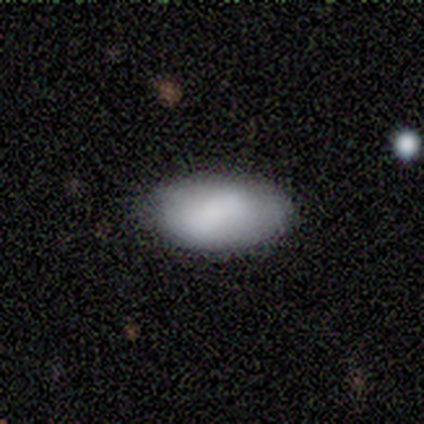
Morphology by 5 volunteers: A smooth galaxy with no disk features (60%) that is in between round and cigar-shaped (100%).

Vote fractions:
- Smooth or featured? smooth: 60% / featured or disk: 40% / star or artifact: 0%
- How rounded? in between: 100% / round: 0% / cigar-shaped: 0%
- Merging? none: 60% / minor disturbance: 20% / major disturbance: 20% / merger: 0%